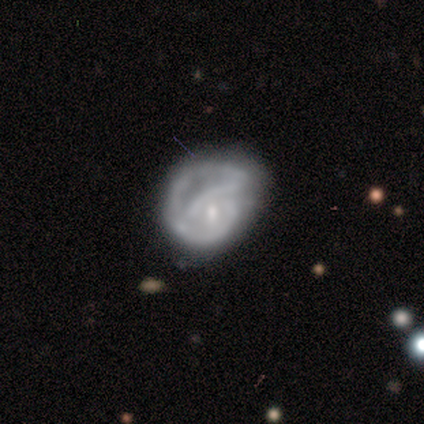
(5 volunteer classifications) Smooth or featured: featured or disk — 60% (smooth — 40%)
Edge-on disk: no — 100%
Bar: no — 67% (strong — 33%)
Spiral arms: no — 67% (yes — 33%)
Bulge size: small — 100%
Merging: minor disturbance — 40% (none — 20%)